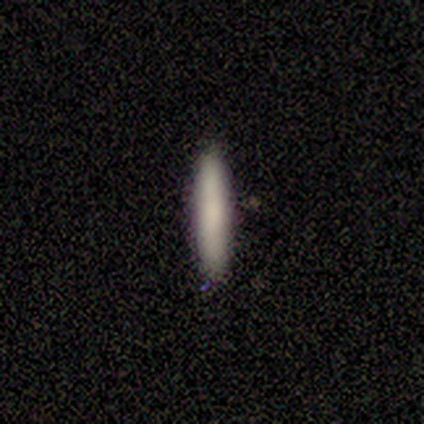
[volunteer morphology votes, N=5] A smooth galaxy with no disk features (100%) that is cigar-shaped (100%). Merging: none (100%).